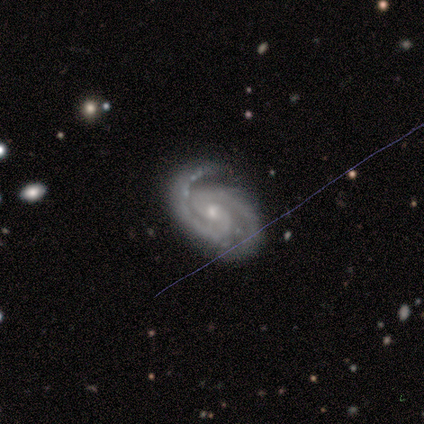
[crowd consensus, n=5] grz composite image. It shows a featured or disk galaxy (80%) with no bar (75%), 2 (100%) tight (75%) spiral arms (100%) and a moderate central bulge (75%). Merging: none (100%).